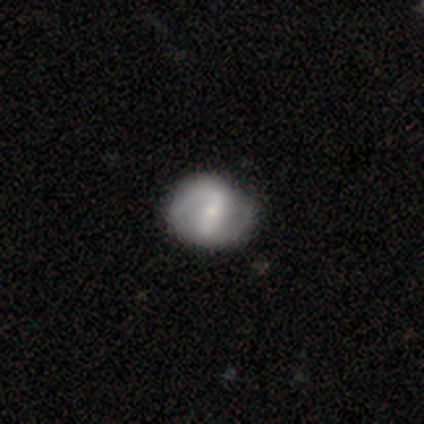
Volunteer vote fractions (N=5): Smooth or featured? featured or disk (100%)
Edge-on disk? no (80%)
Bar? strong (75%)
Spiral arms? yes (75%)
Spiral winding? medium (67%)
Spiral arm count? 2 (67%)
Bulge size? moderate (50%)
Merging? none (80%)